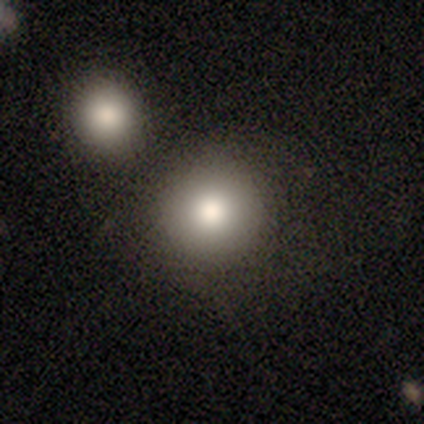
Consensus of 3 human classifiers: Overall: smooth (67%; featured or disk 33%). How rounded: round (100%). Merging: none (100%).